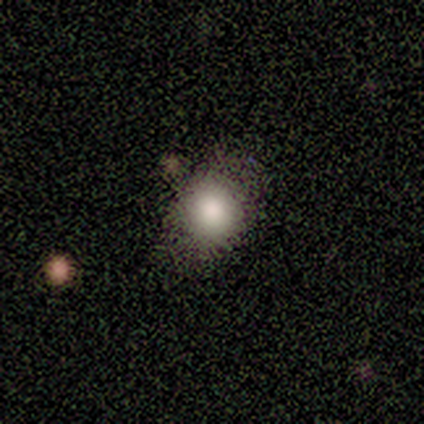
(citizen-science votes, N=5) smooth-or-featured: smooth: 80% | star or artifact: 20% | featured or disk: 0%
  how-rounded: round: 100% | in between: 0% | cigar-shaped: 0%
  merging: none: 75% | minor disturbance: 25% | major disturbance: 0% | merger: 0%